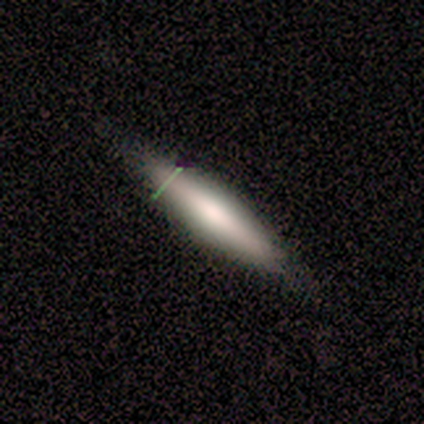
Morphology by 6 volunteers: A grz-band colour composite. It shows a featured or disk galaxy (50%) viewed edge-on (67%) with a boxy central bulge (50%, tied with rounded). Merging: none (100%).